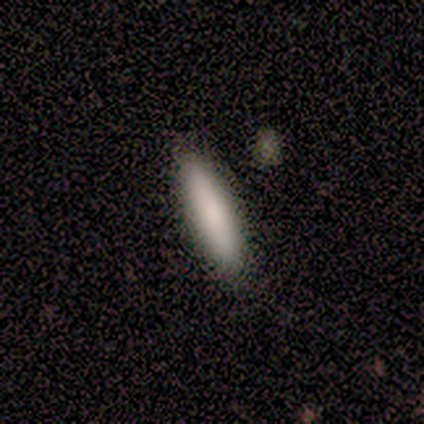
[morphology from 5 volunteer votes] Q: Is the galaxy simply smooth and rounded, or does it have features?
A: smooth — 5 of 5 (100%).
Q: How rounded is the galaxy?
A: cigar-shaped — 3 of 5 (60%).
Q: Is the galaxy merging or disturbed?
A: none — 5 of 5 (100%).